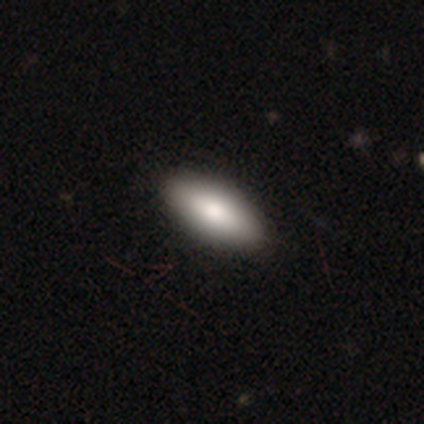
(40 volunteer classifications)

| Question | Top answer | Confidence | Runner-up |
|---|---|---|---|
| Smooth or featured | smooth | 80% | featured or disk (15%) |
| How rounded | in between | 100% | — |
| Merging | none | 76% | — |